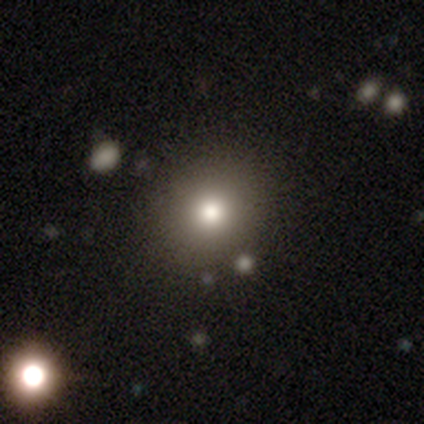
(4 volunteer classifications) A smooth galaxy with no disk features (50%) that is round (50%, tied with in between).

Vote fractions:
- Smooth or featured? smooth: 50% / featured or disk: 25% / star or artifact: 25%
- How rounded? round: 50% (tied) / in between: 50% (tied) / cigar-shaped: 0%
- Merging? none: 100% / minor disturbance: 0% / major disturbance: 0% / merger: 0%